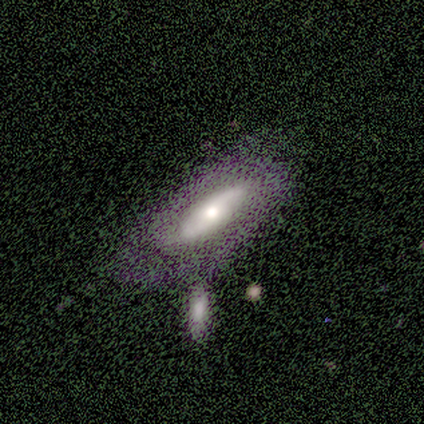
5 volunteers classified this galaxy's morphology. A featured or disk galaxy (60%) viewed edge-on (67%) with a boxy central bulge (50%, tied with rounded). Merging: none (50%).